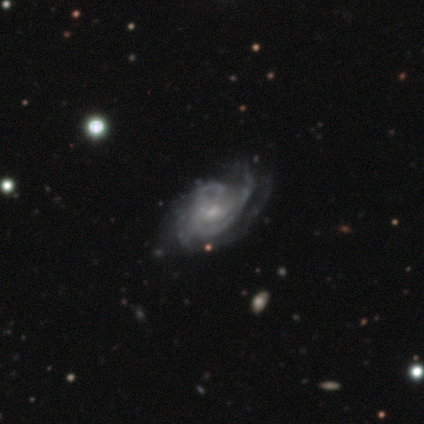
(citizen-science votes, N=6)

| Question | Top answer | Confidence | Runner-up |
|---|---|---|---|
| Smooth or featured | featured or disk | 83% | smooth (17%) |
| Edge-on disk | no | 100% | — |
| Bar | no | 100% | — |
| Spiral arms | yes | 100% | — |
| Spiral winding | medium | 60% | tight (40%) |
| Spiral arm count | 3 | 60% | 2 (20%) |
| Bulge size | small | 100% | — |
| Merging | none | 83% | major disturbance (17%) |